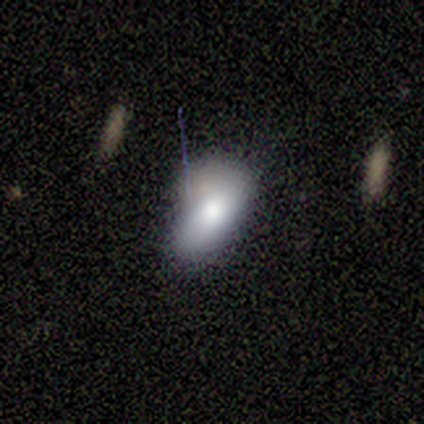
This appears to be a smooth galaxy with no disk features (50%) that is in between round and cigar-shaped (100%). Merging: minor disturbance (50%).